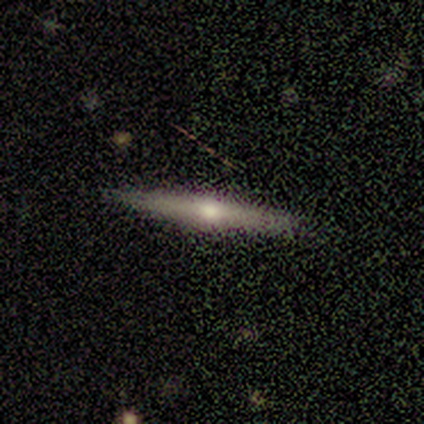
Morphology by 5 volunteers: Smooth or featured? featured or disk (100%)
Edge-on disk? yes (100%)
Edge-on bulge? rounded (100%)
Merging? none (80%)